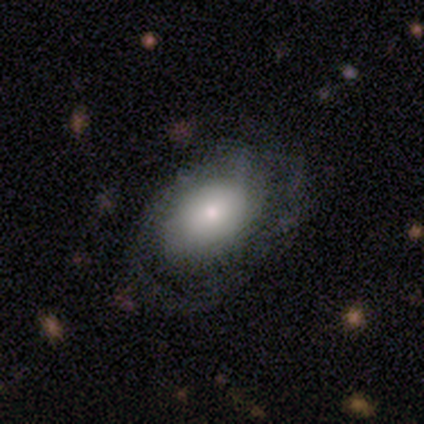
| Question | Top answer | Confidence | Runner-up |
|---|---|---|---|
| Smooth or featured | featured or disk | 61% | smooth (33%) |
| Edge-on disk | no | 95% | yes (5%) |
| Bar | no | 90% | strong (5%) |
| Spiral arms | yes | 67% | no (33%) |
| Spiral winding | tight | 57% | medium (29%) |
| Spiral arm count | can't tell | 64% | 2 (21%) |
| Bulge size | moderate | 38% | large (33%) |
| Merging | none | 59% | minor disturbance (24%) |